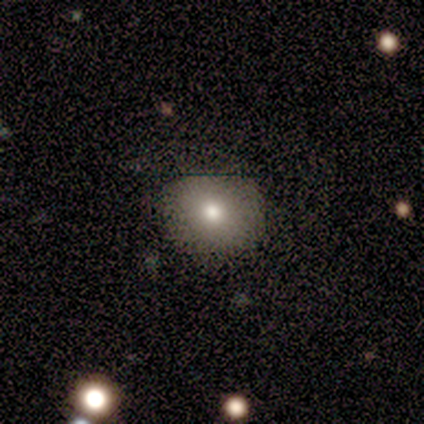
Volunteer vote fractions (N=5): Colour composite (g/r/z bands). It shows a smooth galaxy with no disk features (60%) that is round (100%). Merging: none (100%).